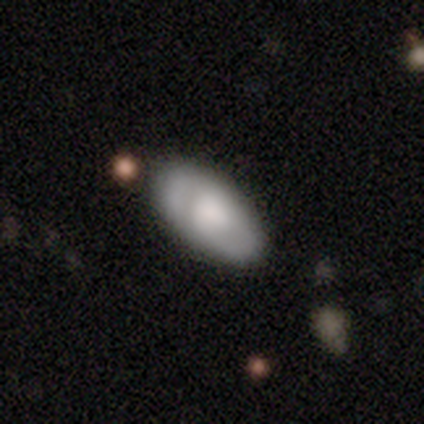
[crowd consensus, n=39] Smooth or featured: smooth — 54% (featured or disk — 38%)
How rounded: in between — 81% (cigar-shaped — 19%)
Merging: none — 78% (minor disturbance — 19%)